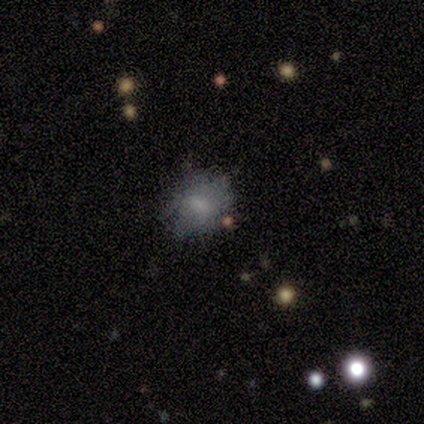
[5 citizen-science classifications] This appears to be a smooth galaxy with no disk features (60%) that is round (67%). Merging: none (60%).